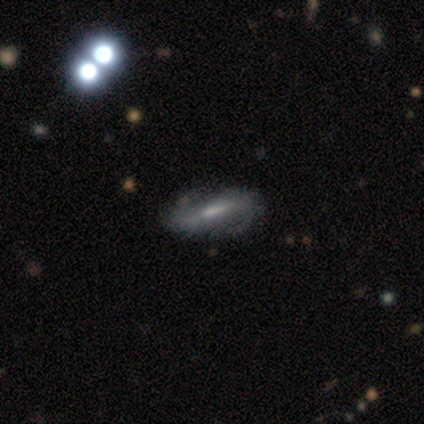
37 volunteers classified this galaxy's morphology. A featured or disk galaxy (70%) with a weak bar (50%), 2 (93%) medium (43%) spiral arms (88%) and a moderate central bulge (50%). Merging: none (78%).